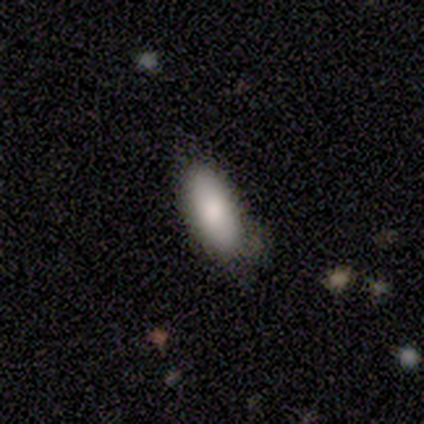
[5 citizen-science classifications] Volunteers were most divided on "smooth or featured": smooth: 60%, featured or disk: 40%, star or artifact: 0%. More confident: merging — minor disturbance (80%); how rounded — in between (67%).